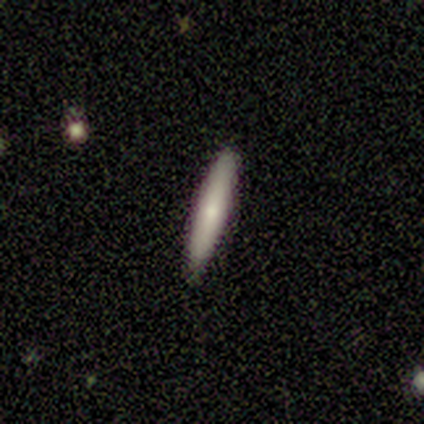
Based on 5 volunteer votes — This is clearly a smooth galaxy (80%). How rounded: clearly cigar-shaped (100%). Merging: clearly none (100%).